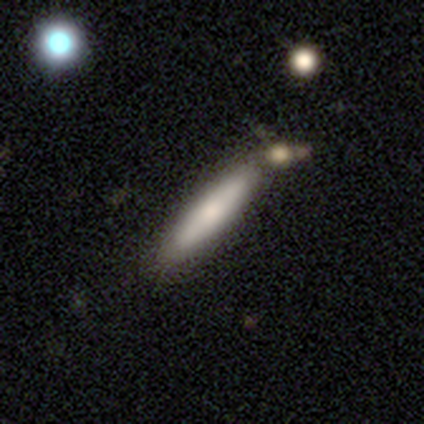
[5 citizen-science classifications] This appears to be a featured or disk galaxy (60%) viewed edge-on (100%) with a rounded central bulge (67%). Merging: none (60%).